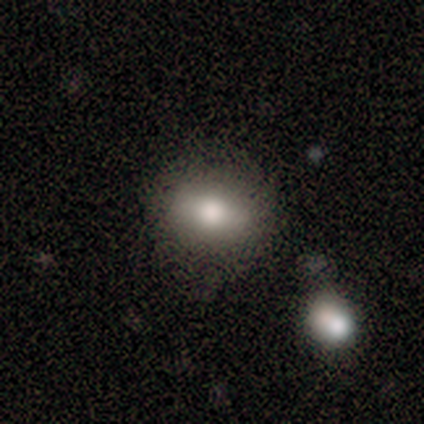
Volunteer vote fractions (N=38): A smooth galaxy with no disk features (87%) that is in between round and cigar-shaped (73%).

Vote fractions:
- Smooth or featured? smooth: 87% / featured or disk: 8% / star or artifact: 5%
- How rounded? in between: 73% / round: 24% / cigar-shaped: 3%
- Merging? none: 72% / minor disturbance: 17% / major disturbance: 6% / merger: 6%